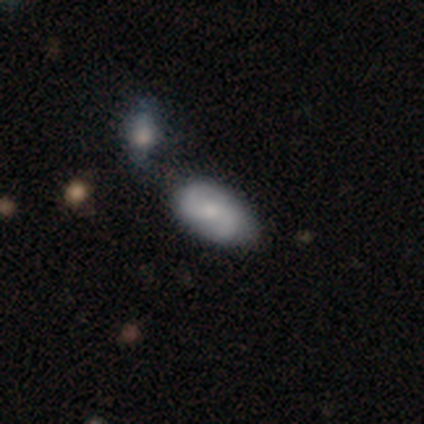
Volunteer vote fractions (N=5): This is likely a featured or disk galaxy (60%). It is clearly not viewed edge-on (100%). Bar: likely no (67%). Spiral arm pattern: clearly yes (100%). Spiral arm count: clearly 2 (100%). Spiral winding: likely loose (67%). Central bulge: clearly moderate (100%). Merging: marginally minor disturbance (40%, tied with merger).